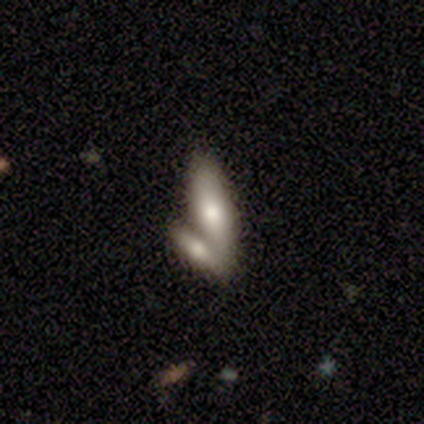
Smooth or featured?
  - smooth: 60% *
  - featured or disk: 40%
  - star or artifact: 0%
How rounded?
  - cigar-shaped: 67% *
  - in between: 33%
  - round: 0%
Merging?
  - merger: 40% *
  - none: 20%
  - minor disturbance: 20%
  - major disturbance: 20%